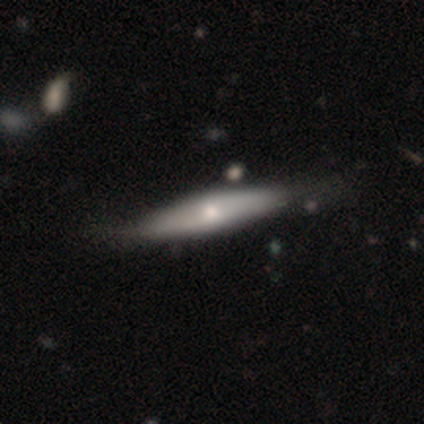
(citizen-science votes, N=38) smooth 63%, featured or disk 37%, star or artifact 0%. Down the decision tree: how rounded — cigar-shaped (83%); merging — none (68%).